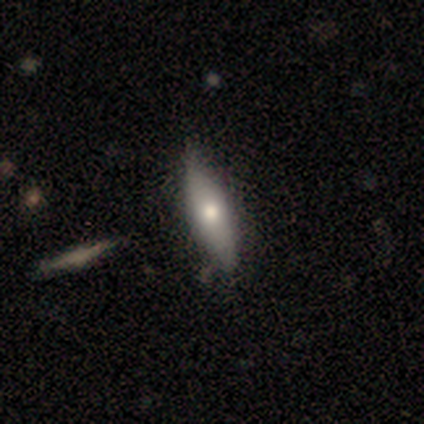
smooth_or_featured: smooth (p=0.60) [alt: featured or disk p=0.40]
how_rounded: cigar-shaped (p=0.67) [alt: in between p=0.33]
merging: none (p=0.40) [tied with: minor disturbance p=0.40]